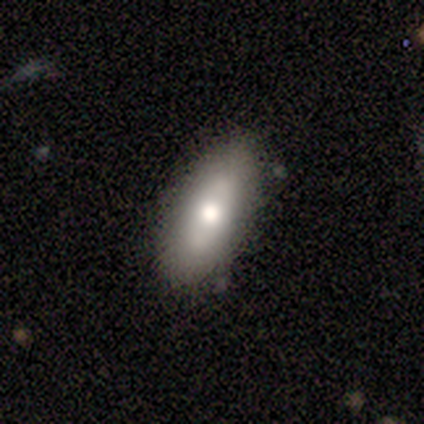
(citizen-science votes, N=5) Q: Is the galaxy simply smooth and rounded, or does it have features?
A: smooth — 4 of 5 (80%).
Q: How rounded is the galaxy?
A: in between — 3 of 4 (75%).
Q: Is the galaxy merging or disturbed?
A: none — 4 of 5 (80%).